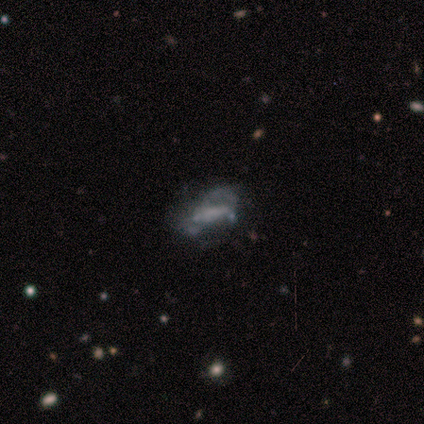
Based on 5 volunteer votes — A featured or disk galaxy (100%) with a weak bar (40%, tied with no), no spiral arms (60%) and a small central bulge (40%, tied with none). Merging: none (40%, tied with minor disturbance).